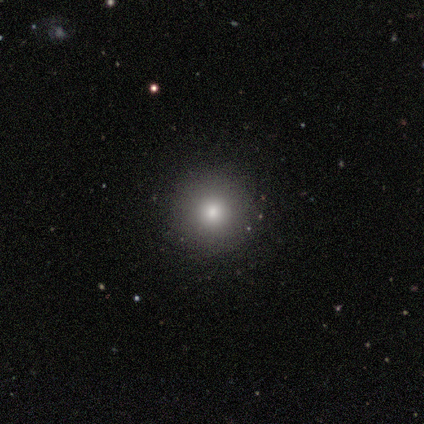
smooth_or_featured: smooth (p=0.67) [alt: star or artifact p=0.33]
how_rounded: round (p=1.00)
merging: none (p=1.00)